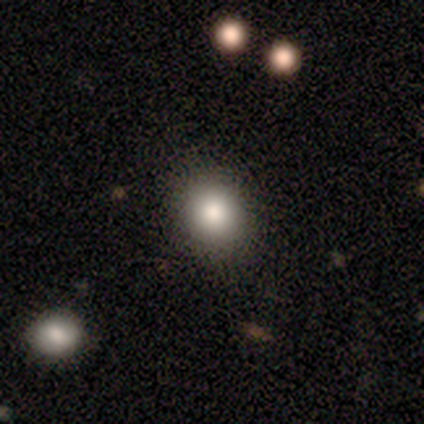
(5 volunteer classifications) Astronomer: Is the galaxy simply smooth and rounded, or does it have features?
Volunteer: smooth — 60%.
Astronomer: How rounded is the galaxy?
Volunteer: round — 67%.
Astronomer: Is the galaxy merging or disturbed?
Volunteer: none — 100%.